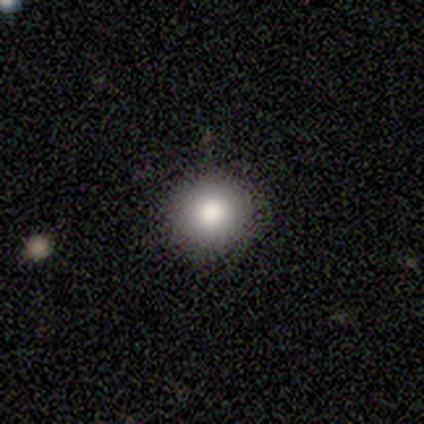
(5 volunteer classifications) Volunteers were most divided on "merging": none: 75%, minor disturbance: 25%, major disturbance: 0%, merger: 0%. More confident: how rounded — round (100%); smooth or featured — smooth (80%).